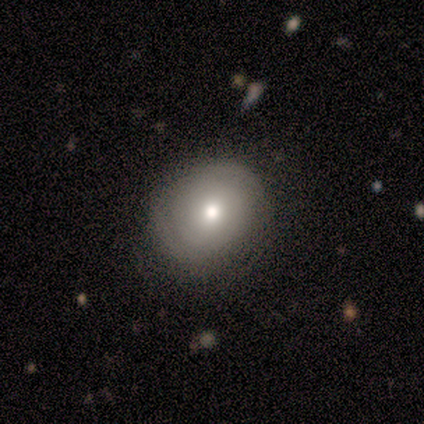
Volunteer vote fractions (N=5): Smooth or featured?
  - smooth: 40% * (tied)
  - featured or disk: 40% * (tied)
  - star or artifact: 20%
How rounded?
  - round: 50% * (tied)
  - in between: 50% * (tied)
  - cigar-shaped: 0%
Merging?
  - none: 75% *
  - minor disturbance: 25%
  - major disturbance: 0%
  - merger: 0%